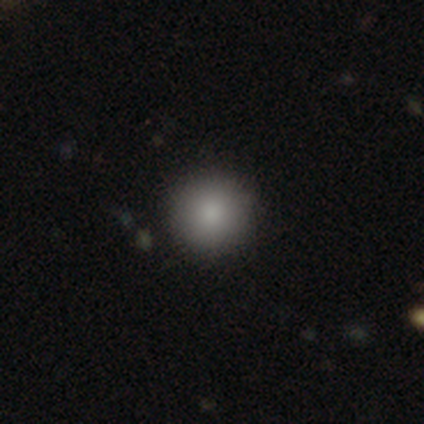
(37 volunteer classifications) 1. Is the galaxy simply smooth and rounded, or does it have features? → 86% smooth, 8% star or artifact, 5% featured or disk.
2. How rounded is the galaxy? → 97% round, 3% in between, 0% cigar-shaped.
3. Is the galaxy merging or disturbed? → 97% none, 3% minor disturbance, 0% major disturbance, 0% merger.